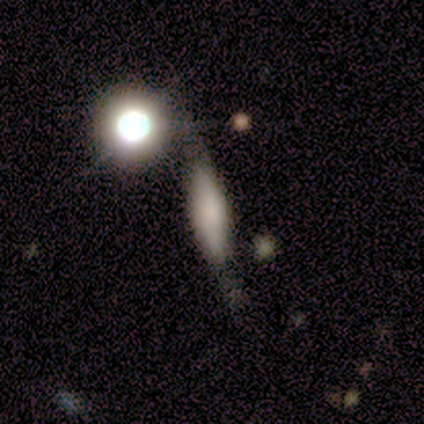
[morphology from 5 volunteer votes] This appears to be a smooth galaxy with no disk features (60%) that is round (33%, tied with in between and cigar-shaped). Merging: none (40%, tied with minor disturbance).